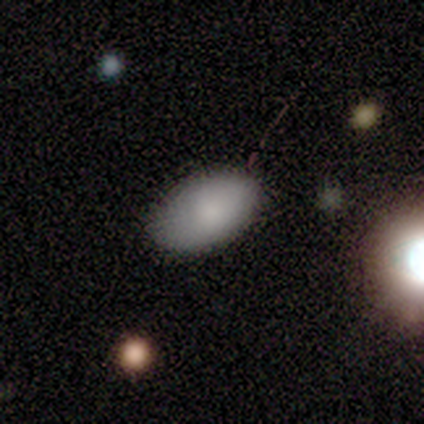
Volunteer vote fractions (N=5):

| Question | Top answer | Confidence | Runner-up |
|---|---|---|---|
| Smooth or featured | smooth | 60% | featured or disk (20%) |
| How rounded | in between | 100% | — |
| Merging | none | 100% | — |